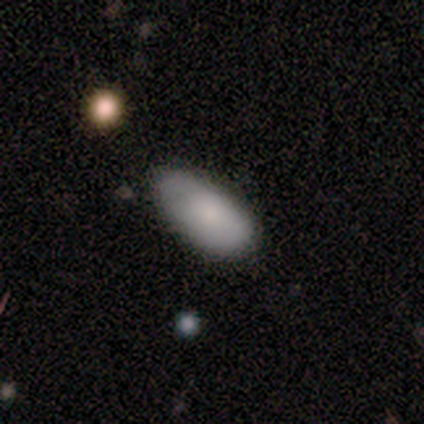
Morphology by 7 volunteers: Q: Smooth or featured?
A: smooth (100%)
Q: How rounded?
A: in between (100%)
Q: Merging?
A: minor disturbance (57%); runner-up: none (29%)